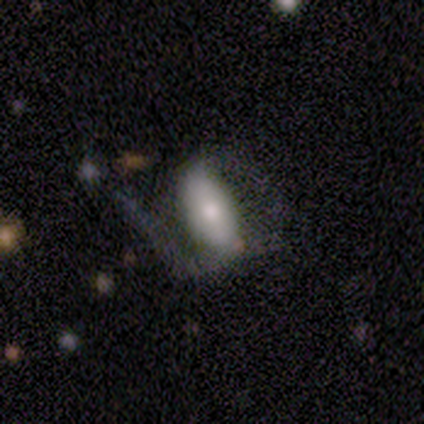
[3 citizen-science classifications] Q: Smooth or featured?
A: smooth (67%); runner-up: star or artifact (33%)
Q: How rounded?
A: in between (100%)
Q: Merging?
A: minor disturbance (50%); tied with: major disturbance (50%)